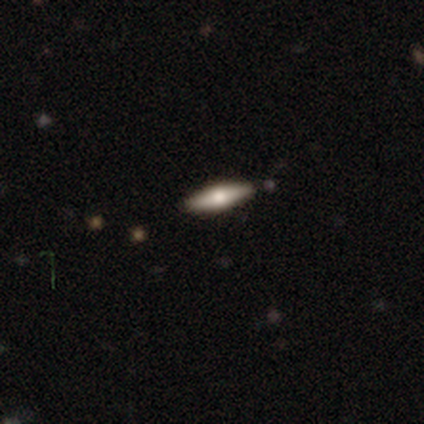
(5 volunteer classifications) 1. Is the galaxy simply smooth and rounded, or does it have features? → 60% featured or disk, 40% smooth, 0% star or artifact.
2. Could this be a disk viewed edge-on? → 100% yes, 0% no.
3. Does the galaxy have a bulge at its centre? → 100% rounded, 0% boxy, 0% none.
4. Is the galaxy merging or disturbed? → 100% none, 0% minor disturbance, 0% major disturbance, 0% merger.